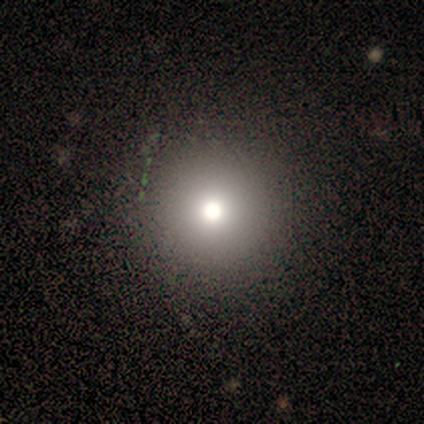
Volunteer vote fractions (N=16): Q: Smooth or featured?
A: smooth (81%); runner-up: star or artifact (12%)
Q: How rounded?
A: round (92%); runner-up: in between (8%)
Q: Merging?
A: none (100%)